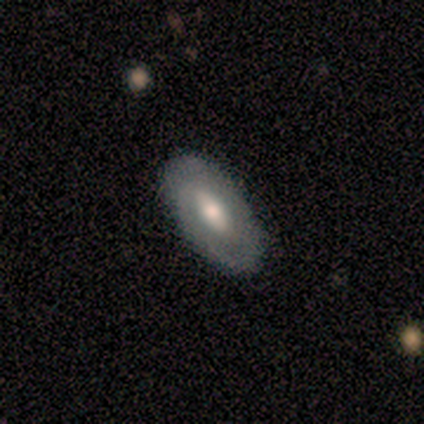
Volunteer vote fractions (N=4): A smooth galaxy with no disk features (50%, tied with featured or disk) that is round (50%, tied with in between).

Vote fractions:
- Smooth or featured? smooth: 50% (tied) / featured or disk: 50% (tied) / star or artifact: 0%
- How rounded? round: 50% (tied) / in between: 50% (tied) / cigar-shaped: 0%
- Merging? none: 75% / merger: 25% / minor disturbance: 0% / major disturbance: 0%